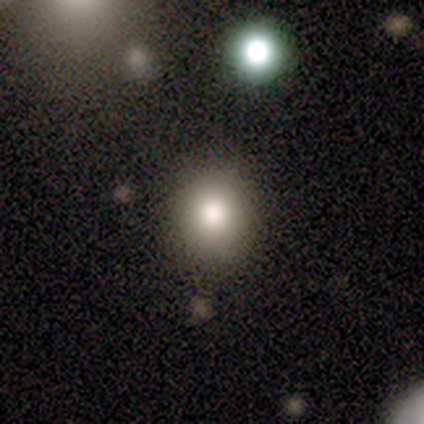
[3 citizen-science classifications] A smooth galaxy with no disk features (67%) that is round (50%, tied with in between).

Vote fractions:
- Smooth or featured? smooth: 67% / featured or disk: 33% / star or artifact: 0%
- How rounded? round: 50% (tied) / in between: 50% (tied) / cigar-shaped: 0%
- Merging? none: 33% (tied) / minor disturbance: 33% (tied) / major disturbance: 33% (tied) / merger: 0%